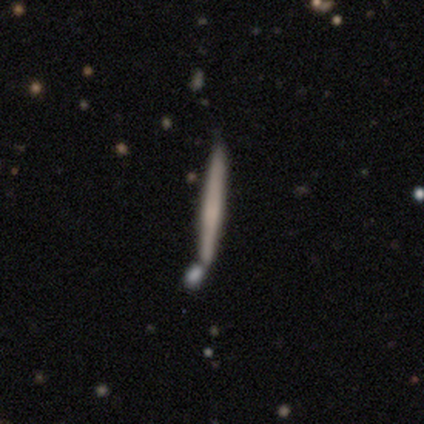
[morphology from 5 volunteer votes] Smooth or featured? smooth (60%)
How rounded? cigar-shaped (100%)
Merging? none (80%)